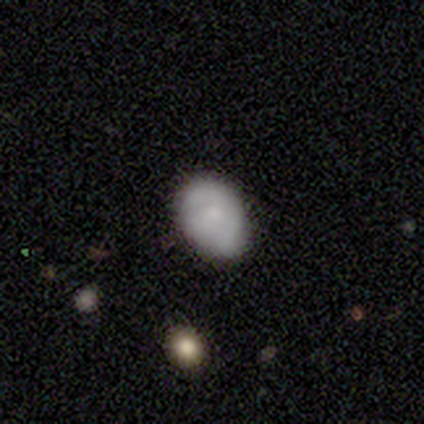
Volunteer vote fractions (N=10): Morphology: type=smooth (90%); roundness=in between (89%); merging=none (60%).